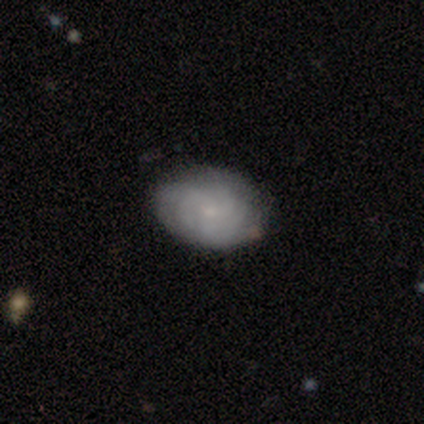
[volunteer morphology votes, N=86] A featured or disk galaxy (48%) with no bar (88%), tight (71%) spiral arms (85%) and a small central bulge (80%).

Vote fractions:
- Smooth or featured? featured or disk: 48% / smooth: 42% / star or artifact: 10%
- Edge-on disk? no: 98% / yes: 2%
- Bar? no: 88% / weak: 12% / strong: 0%
- Spiral arms? yes: 85% / no: 15%
- Spiral winding? tight: 71% / medium: 21% / loose: 9%
- Spiral arm count? can't tell: 50% / 3: 24% / 4: 15% / more than 4: 9% / 2: 3% / 1: 0%
- Bulge size? small: 80% / none: 15% / moderate: 5% / dominant: 0% / large: 0%
- Merging? none: 86% / minor disturbance: 10% / major disturbance: 3% / merger: 1%